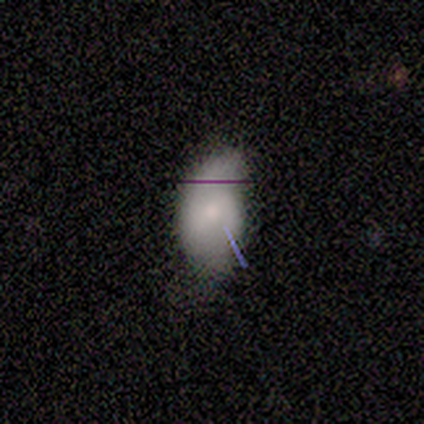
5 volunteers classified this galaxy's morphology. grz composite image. It shows a smooth galaxy with no disk features (60%) that is in between round and cigar-shaped (100%). Merging: none (50%, tied with minor disturbance).